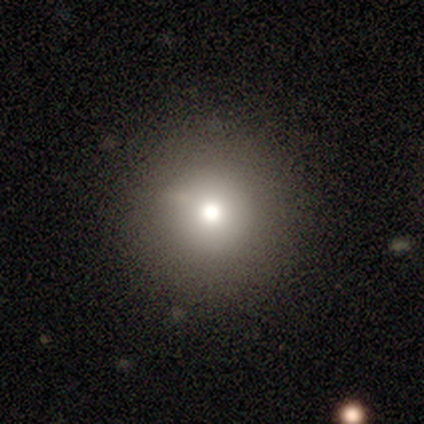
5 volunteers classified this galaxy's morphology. smooth 100%, featured or disk 0%, star or artifact 0%. Down the decision tree: how rounded — round (100%); merging — none (80%).